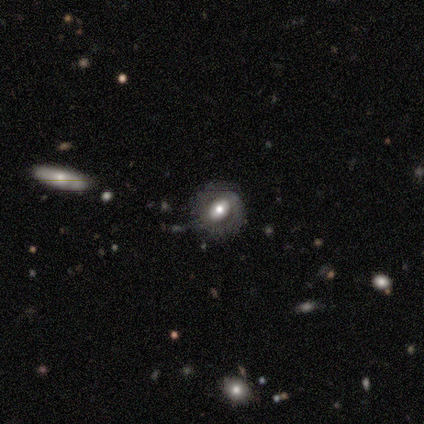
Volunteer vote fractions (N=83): Smooth or featured?
  - featured or disk: 69% *
  - smooth: 25%
  - star or artifact: 6%
Edge-on disk?
  - no: 93% *
  - yes: 7%
Bar?
  - no: 36% *
  - strong: 34%
  - weak: 30%
Spiral arms?
  - no: 62% *
  - yes: 38%
Bulge size?
  - moderate: 66% *
  - large: 21%
  - small: 8%
  - dominant: 6%
  - none: 0%
Merging?
  - none: 71% *
  - minor disturbance: 15%
  - merger: 8%
  - major disturbance: 6%